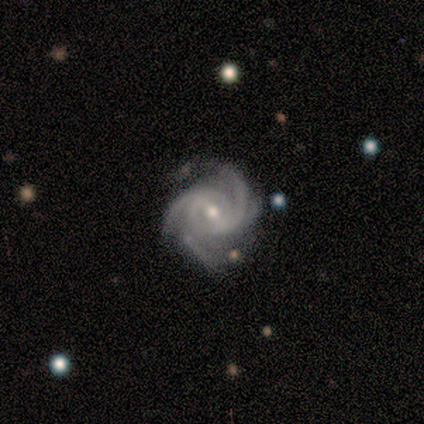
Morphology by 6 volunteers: type=featured or disk (100%); edge-on=no (100%); bar=weak (50%); spiral arms=yes (100%); winding=medium (67%); arm count=3 (50%, tied with 4); bulge=small (67%); merging=none (67%).